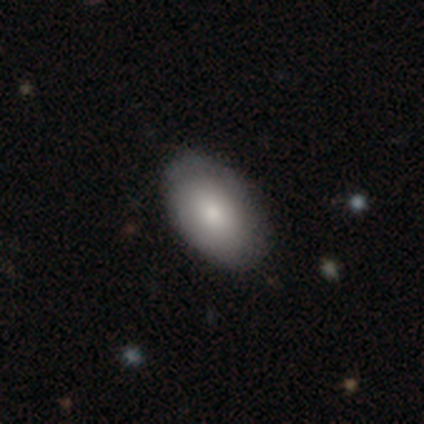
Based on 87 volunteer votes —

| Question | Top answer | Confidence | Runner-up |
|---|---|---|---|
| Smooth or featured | smooth | 79% | featured or disk (18%) |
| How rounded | in between | 91% | round (7%) |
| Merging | none | 80% | minor disturbance (18%) |